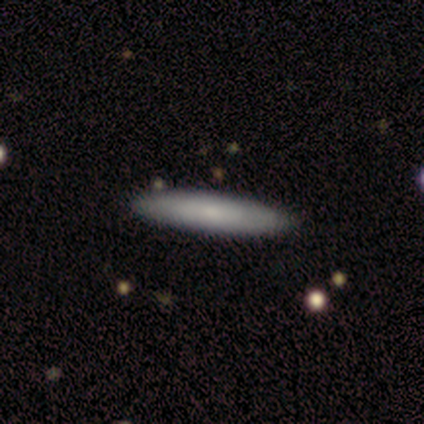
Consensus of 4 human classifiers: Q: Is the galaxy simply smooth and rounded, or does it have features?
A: smooth — 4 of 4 (100%).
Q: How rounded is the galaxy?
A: cigar-shaped — 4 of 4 (100%).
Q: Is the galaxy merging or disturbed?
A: none — 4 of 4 (100%).